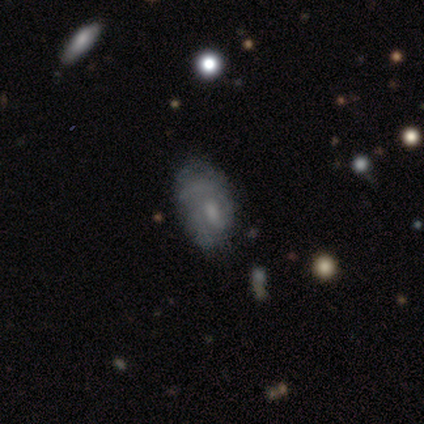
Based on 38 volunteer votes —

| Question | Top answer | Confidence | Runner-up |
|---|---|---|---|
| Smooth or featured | featured or disk | 74% | smooth (21%) |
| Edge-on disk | no | 100% | — |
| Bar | no | 61% | weak (36%) |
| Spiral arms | yes | 64% | no (36%) |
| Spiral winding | medium | 44% | tight (39%) |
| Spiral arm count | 1 | 39% | can't tell (33%) |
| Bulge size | moderate | 46% | small (32%) |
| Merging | none | 25% | minor disturbance (22%) |